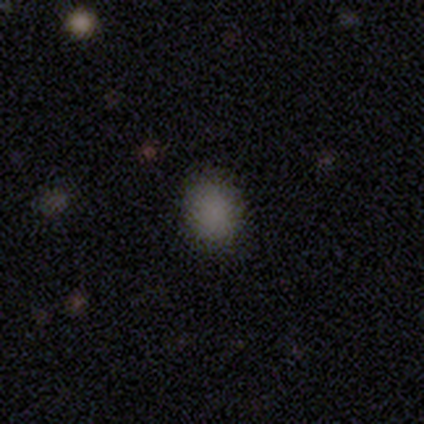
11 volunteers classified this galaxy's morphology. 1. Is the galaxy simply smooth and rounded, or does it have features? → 82% smooth, 18% star or artifact, 0% featured or disk.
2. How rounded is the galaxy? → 56% round, 44% in between, 0% cigar-shaped.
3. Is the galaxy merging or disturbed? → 100% none, 0% minor disturbance, 0% major disturbance, 0% merger.